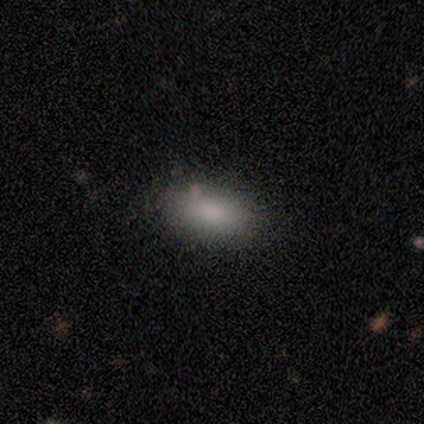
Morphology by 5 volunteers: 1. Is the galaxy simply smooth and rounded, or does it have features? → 40% smooth (tied), 40% featured or disk (tied), 20% star or artifact.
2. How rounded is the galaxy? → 100% in between, 0% round, 0% cigar-shaped.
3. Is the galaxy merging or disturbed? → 50% none (tied), 50% minor disturbance (tied), 0% major disturbance, 0% merger.